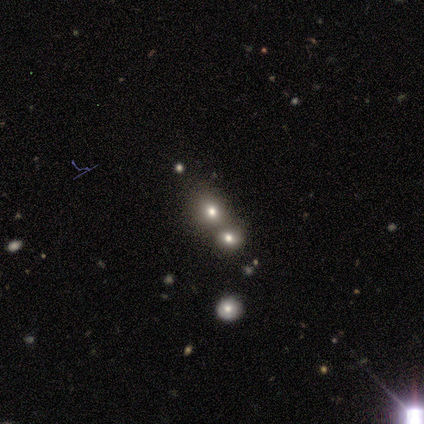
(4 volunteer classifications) Smooth or featured?
  - smooth: 50% * (tied)
  - star or artifact: 50% * (tied)
  - featured or disk: 0%
How rounded?
  - round: 100% *
  - in between: 0%
  - cigar-shaped: 0%
Merging?
  - none: 50% * (tied)
  - merger: 50% * (tied)
  - minor disturbance: 0%
  - major disturbance: 0%